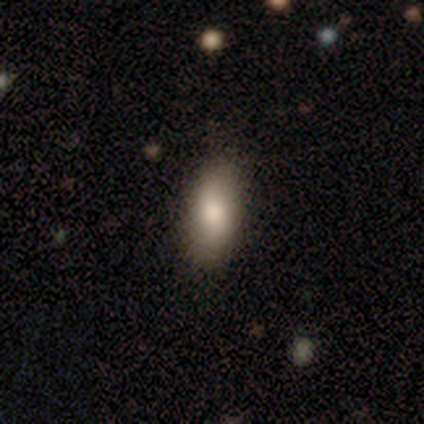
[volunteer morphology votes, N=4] This is likely a smooth galaxy (75%). How rounded: likely in between (67%). Merging: likely none (67%).